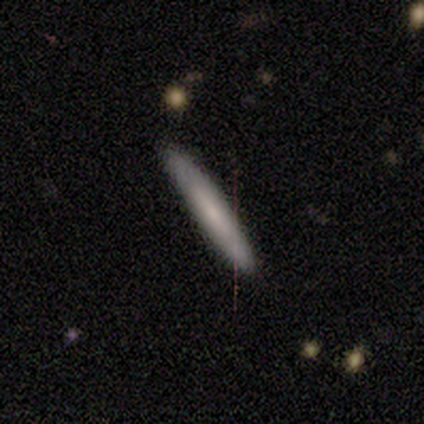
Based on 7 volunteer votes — This appears to be a smooth galaxy with no disk features (71%) that is cigar-shaped (100%). Merging: none (100%).